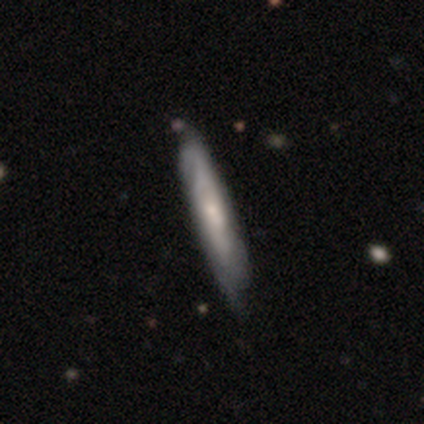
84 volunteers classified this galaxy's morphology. smooth_or_featured: featured or disk (p=0.54) [alt: smooth p=0.37]
disk_edge_on: yes (p=0.60) [alt: no p=0.40]
edge_on_bulge: rounded (p=0.48) [alt: none p=0.44]
merging: none (p=0.66) [alt: minor disturbance p=0.26]